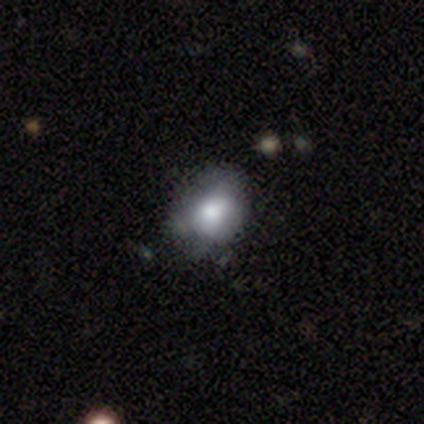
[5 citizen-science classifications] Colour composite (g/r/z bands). It shows a featured or disk galaxy (60%) with no bar (100%), no spiral arms (100%) and a moderate central bulge (67%). Merging: none (60%).